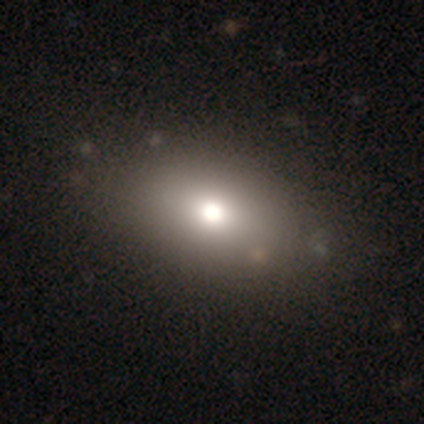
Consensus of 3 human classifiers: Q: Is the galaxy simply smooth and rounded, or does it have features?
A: smooth — 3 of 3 (100%).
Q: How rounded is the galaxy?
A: round — 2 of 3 (67%).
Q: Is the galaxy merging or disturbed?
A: none — 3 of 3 (100%).